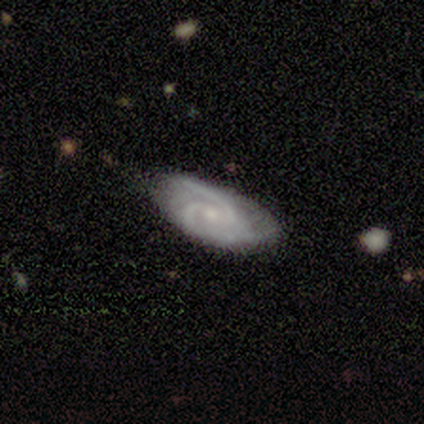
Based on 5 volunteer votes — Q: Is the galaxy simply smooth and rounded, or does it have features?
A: featured or disk — 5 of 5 (100%).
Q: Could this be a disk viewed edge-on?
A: no — 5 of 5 (100%).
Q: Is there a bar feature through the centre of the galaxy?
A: weak — 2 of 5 (40%, tied with no).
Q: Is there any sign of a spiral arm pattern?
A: yes — 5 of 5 (100%).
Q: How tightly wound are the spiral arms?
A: medium — 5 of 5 (100%).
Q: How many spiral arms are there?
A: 2 — 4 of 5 (80%).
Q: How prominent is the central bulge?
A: small — 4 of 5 (80%).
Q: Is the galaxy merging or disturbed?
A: none — 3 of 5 (60%).